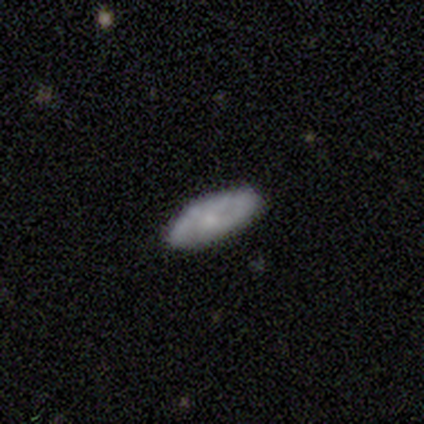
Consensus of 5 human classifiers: This is clearly a featured or disk galaxy (80%). It is possibly viewed edge-on (50%, tied with no). Edge-on bulge: possibly boxy (50%, tied with none). Merging: clearly none (80%).